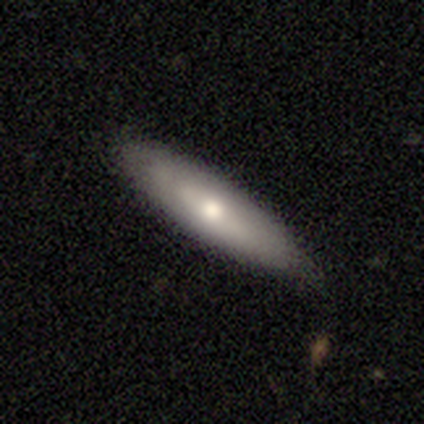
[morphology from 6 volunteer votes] Q: Smooth or featured?
A: smooth (67%); runner-up: featured or disk (33%)
Q: How rounded?
A: cigar-shaped (75%); runner-up: in between (25%)
Q: Merging?
A: none (50%); runner-up: minor disturbance (33%)